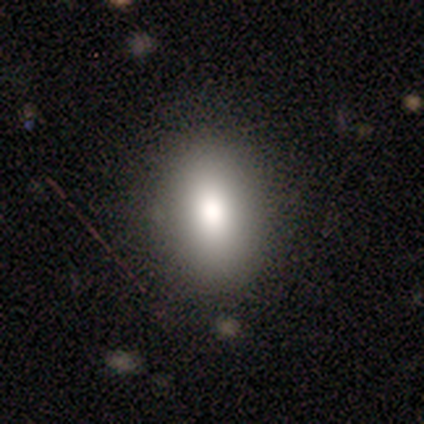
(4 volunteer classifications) Smooth or featured?
  - smooth: 50% * (tied)
  - star or artifact: 50% * (tied)
  - featured or disk: 0%
How rounded?
  - in between: 100% *
  - round: 0%
  - cigar-shaped: 0%
Merging?
  - none: 100% *
  - minor disturbance: 0%
  - major disturbance: 0%
  - merger: 0%